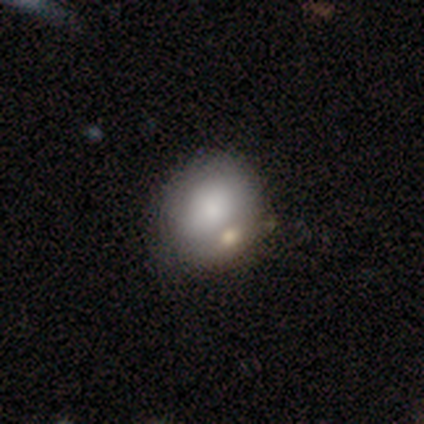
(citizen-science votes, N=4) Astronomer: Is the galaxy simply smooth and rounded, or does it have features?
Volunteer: smooth — 75%.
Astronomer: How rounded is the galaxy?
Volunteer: round — 67%.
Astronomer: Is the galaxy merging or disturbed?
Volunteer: none — 75%.